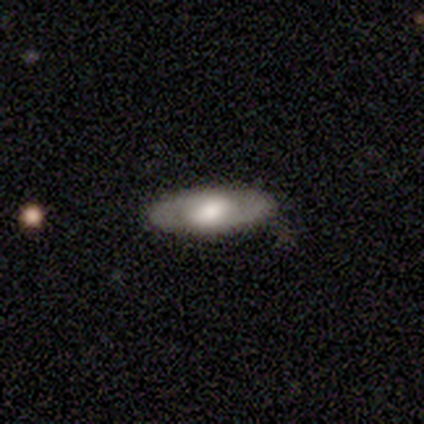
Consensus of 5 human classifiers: Smooth or featured? featured or disk (80%)
Edge-on disk? no (100%)
Bar? no (75%)
Spiral arms? no (75%)
Bulge size? moderate (50%)
Merging? none (75%)